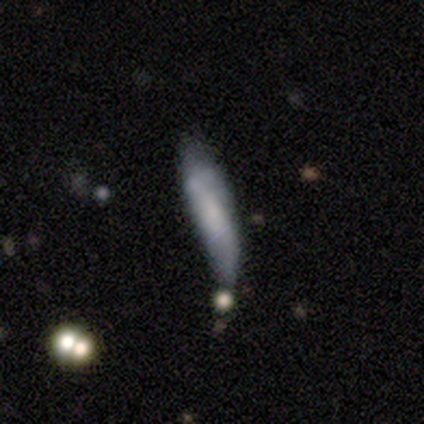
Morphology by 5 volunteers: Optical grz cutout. It shows a smooth galaxy with no disk features (60%) that is cigar-shaped (100%). Merging: minor disturbance (50%).